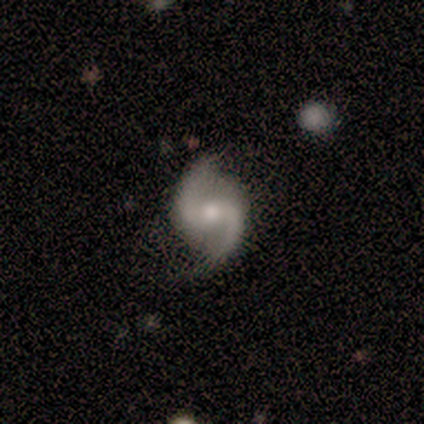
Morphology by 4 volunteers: Volunteers were most divided on "bar": no: 75%, strong: 25%, weak: 0%. More confident: smooth or featured — featured or disk (100%); edge-on disk — no (100%); spiral arms — yes (100%); spiral winding — loose (100%); spiral arm count — 2 (100%); bulge size — moderate (100%); merging — none (75%).